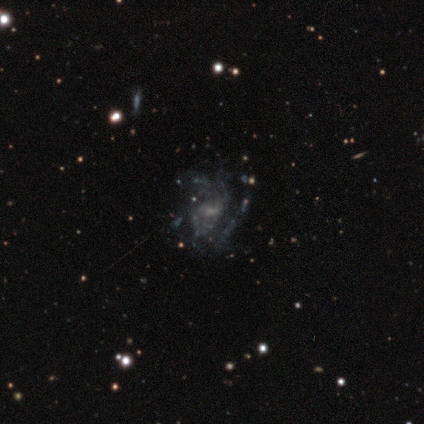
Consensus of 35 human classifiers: smooth_or_featured: featured or disk (p=0.83) [alt: star or artifact p=0.11]
disk_edge_on: no (p=0.97) [alt: yes p=0.03]
bar: no (p=0.50) [alt: weak p=0.46]
has_spiral_arms: yes (p=0.68) [alt: no p=0.32]
spiral_winding: medium (p=0.58) [alt: tight p=0.21]
spiral_arm_count: can't tell (p=0.26) [alt: 2 p=0.21]
bulge_size: small (p=0.43) [tied with: none p=0.43]
merging: none (p=0.55) [alt: major disturbance p=0.23]